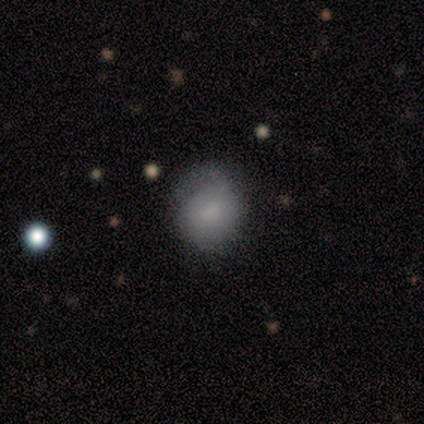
smooth-or-featured: smooth: 75% | star or artifact: 25% | featured or disk: 0%
  how-rounded: round: 67% | in between: 33% | cigar-shaped: 0%
  merging: minor disturbance: 67% | none: 33% | major disturbance: 0% | merger: 0%